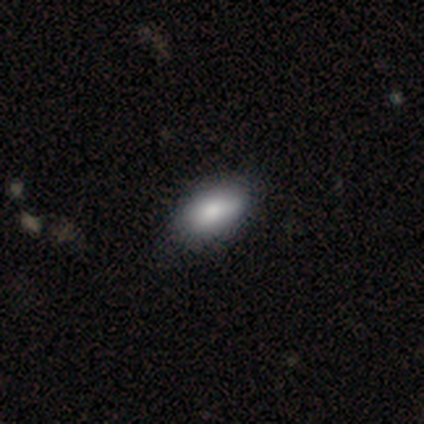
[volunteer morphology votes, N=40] smooth-or-featured: smooth: 88% | featured or disk: 10% | star or artifact: 2%
  how-rounded: in between: 91% | cigar-shaped: 6% | round: 3%
  merging: none: 72% | minor disturbance: 26% | major disturbance: 3% | merger: 0%